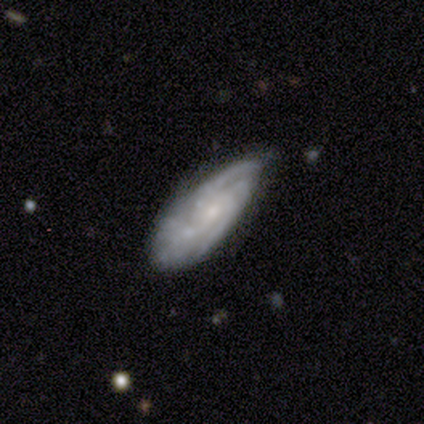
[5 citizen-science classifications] This is clearly a featured or disk galaxy (100%). It is clearly not viewed edge-on (80%). Bar: likely no (75%). Spiral arm pattern: clearly yes (100%). Spiral arm count: possibly can't tell (50%). Spiral winding: possibly tight (50%). Central bulge: clearly small (100%). Merging: clearly none (80%).